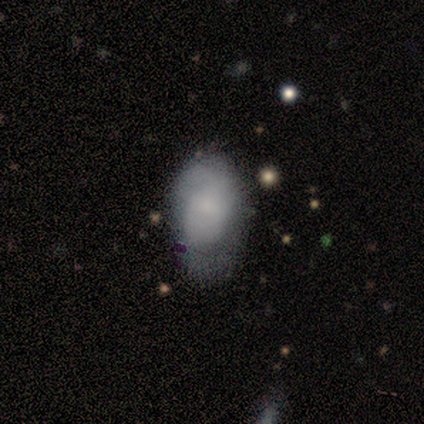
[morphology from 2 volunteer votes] type=smooth (50%, tied with featured or disk); roundness=in between (100%); merging=none (50%, tied with major disturbance).